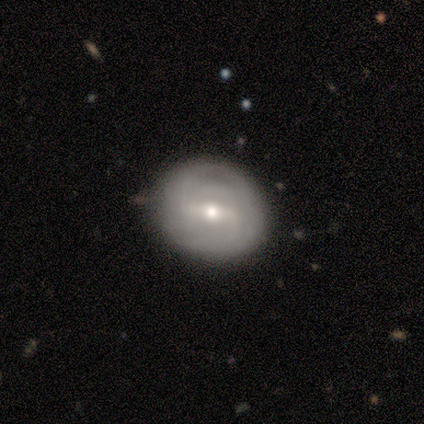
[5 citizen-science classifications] Morphology: type=featured or disk (60%); edge-on=no (100%); bar=weak (67%); spiral arms=yes (100%); winding=medium (100%); arm count=2 (100%); bulge=small (67%); merging=none (100%).